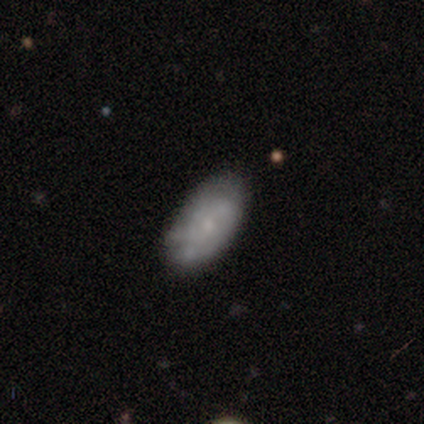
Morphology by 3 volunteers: smooth_or_featured: smooth (p=0.67) [alt: featured or disk p=0.33]
how_rounded: round (p=0.50) [tied with: in between p=0.50]
merging: none (p=0.67) [alt: major disturbance p=0.33]